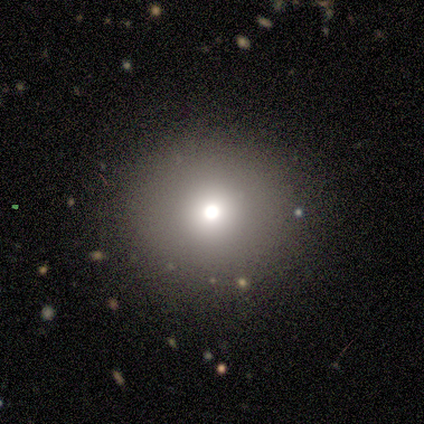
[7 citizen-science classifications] smooth_or_featured: smooth (p=0.86) [alt: featured or disk p=0.14]
how_rounded: round (p=1.00)
merging: none (p=1.00)